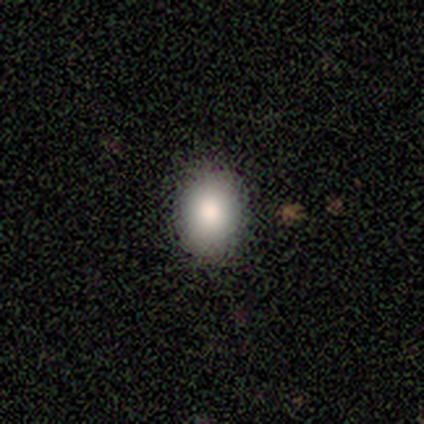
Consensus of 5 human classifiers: This appears to be a smooth galaxy with no disk features (80%) that is round (75%). Merging: none (100%).